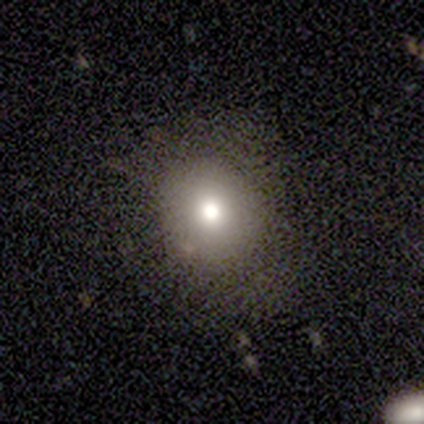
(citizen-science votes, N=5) This is clearly a smooth galaxy (80%). How rounded: clearly round (100%). Merging: likely none (75%).